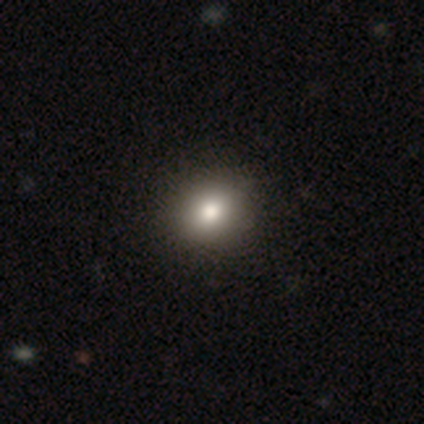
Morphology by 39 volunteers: This appears to be a smooth galaxy with no disk features (85%) that is round (64%). Merging: none (65%).